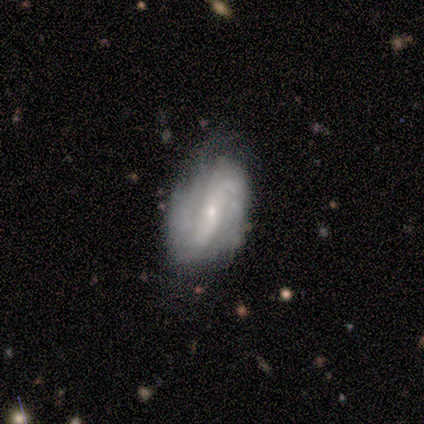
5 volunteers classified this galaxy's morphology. Overall: featured or disk (100%). Edge-on disk: no (100%). Bar: no (80%). Spiral arms: yes (80%). Spiral arm count: 2 (75%). Spiral winding: tight (75%). Bulge size: small (80%). Merging: none (80%).